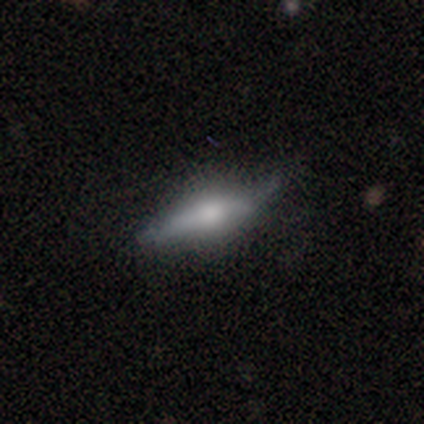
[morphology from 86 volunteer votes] Smooth or featured?
  - featured or disk: 51% *
  - smooth: 45%
  - star or artifact: 3%
Edge-on disk?
  - yes: 93% *
  - no: 7%
Edge-on bulge?
  - rounded: 80% *
  - boxy: 15%
  - none: 5%
Merging?
  - none: 67% *
  - minor disturbance: 25%
  - major disturbance: 5%
  - merger: 2%